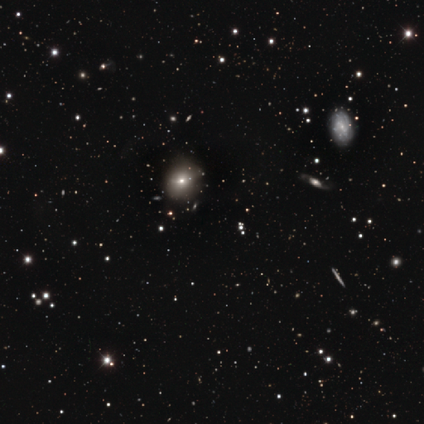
Volunteers were most divided on "edge-on disk" (2-way tie): yes: 50%, no: 50%. More confident: edge-on bulge — rounded (100%); merging — none (100%); smooth or featured — featured or disk (50%).